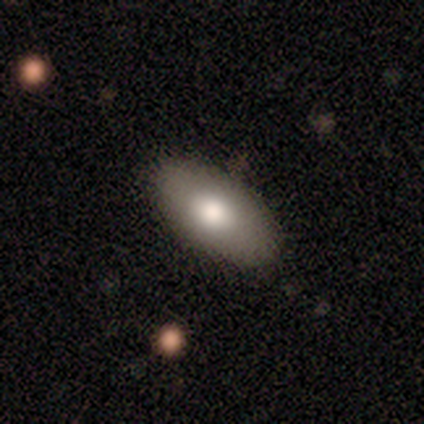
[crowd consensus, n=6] smooth_or_featured: smooth (p=0.83) [alt: featured or disk p=0.17]
how_rounded: in between (p=0.80) [alt: round p=0.20]
merging: none (p=0.83) [alt: merger p=0.17]